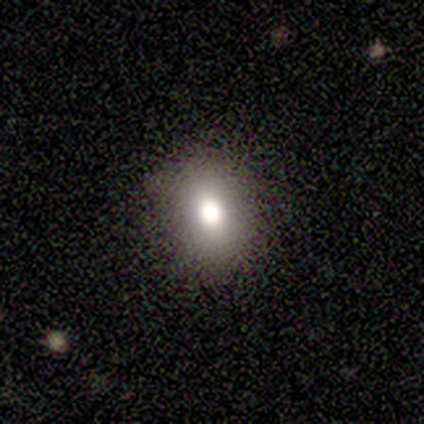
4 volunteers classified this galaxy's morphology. smooth-or-featured: smooth: 75% | star or artifact: 25% | featured or disk: 0%
  how-rounded: round: 67% | in between: 33% | cigar-shaped: 0%
  merging: none: 100% | minor disturbance: 0% | major disturbance: 0% | merger: 0%